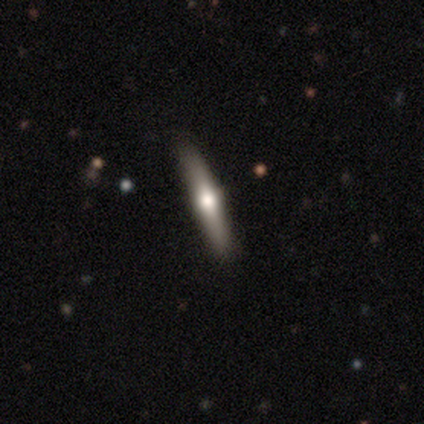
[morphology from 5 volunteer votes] featured or disk 60%, smooth 20%, star or artifact 20%. Down the decision tree: edge-on disk — yes (100%); edge-on bulge — rounded (100%); merging — none (100%).